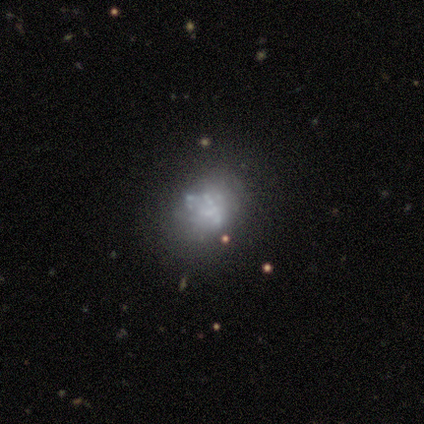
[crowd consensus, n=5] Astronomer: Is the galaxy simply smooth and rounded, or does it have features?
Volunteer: featured or disk — 60%.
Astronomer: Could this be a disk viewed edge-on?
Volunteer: no — 100%.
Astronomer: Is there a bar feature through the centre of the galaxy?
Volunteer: no — 100%.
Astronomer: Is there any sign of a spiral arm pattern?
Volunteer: no — 67%.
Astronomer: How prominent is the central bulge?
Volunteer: small — 67%.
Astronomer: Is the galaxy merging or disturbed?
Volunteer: none — 75%.